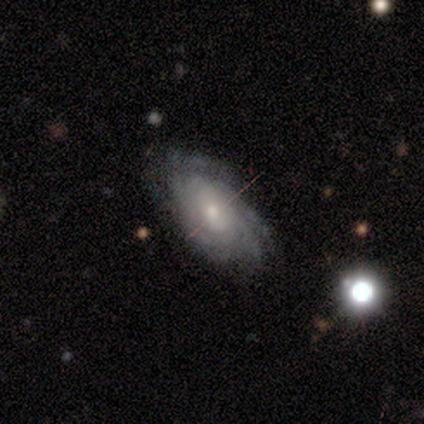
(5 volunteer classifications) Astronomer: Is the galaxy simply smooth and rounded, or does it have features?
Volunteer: featured or disk — 100%.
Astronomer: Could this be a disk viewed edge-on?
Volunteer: no — 100%.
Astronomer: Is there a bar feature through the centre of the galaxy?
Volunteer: no — 80%.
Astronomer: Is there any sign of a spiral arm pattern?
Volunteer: yes — 100%.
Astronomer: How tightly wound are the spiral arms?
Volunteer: tight — 80%.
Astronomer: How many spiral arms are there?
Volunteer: can't tell — 60%.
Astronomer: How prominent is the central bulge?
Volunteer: small — 100%.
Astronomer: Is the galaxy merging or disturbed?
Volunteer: none — 80%.